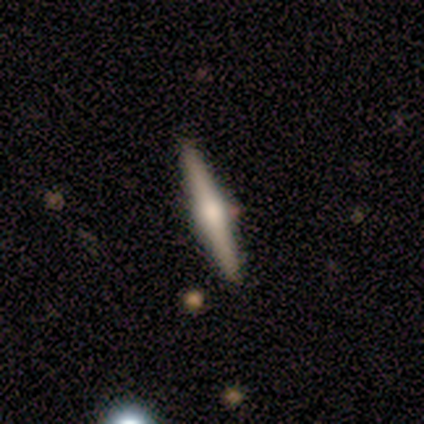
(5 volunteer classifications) Smooth or featured: featured or disk — 100%
Edge-on disk: yes — 100%
Edge-on bulge: rounded — 80% (none — 20%)
Merging: none — 100%